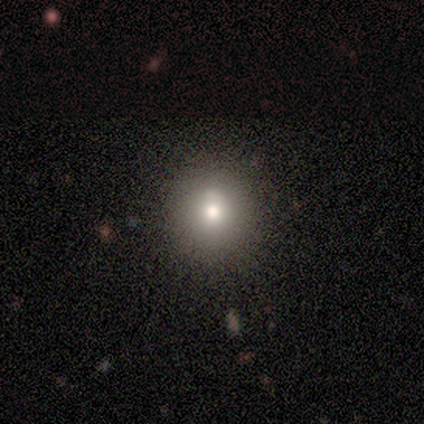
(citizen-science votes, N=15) Smooth or featured? 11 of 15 (73%) said smooth. How rounded? 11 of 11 (100%) said round. Merging? 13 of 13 (100%) said none.